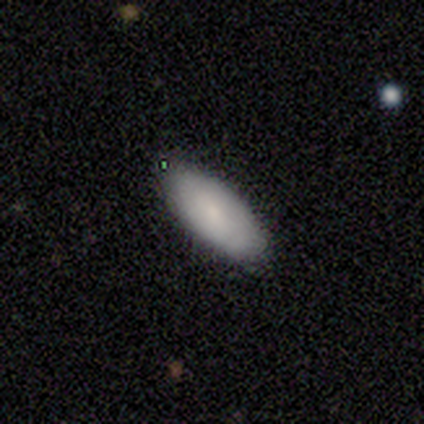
smooth 75%, featured or disk 15%, star or artifact 10%. Down the decision tree: how rounded — in between (93%); merging — none (89%).